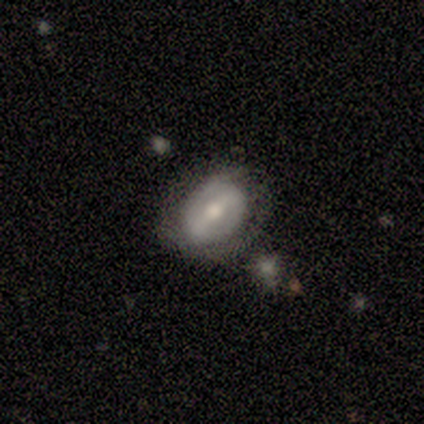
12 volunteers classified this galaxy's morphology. Smooth or featured? featured or disk (75%)
Edge-on disk? no (100%)
Bar? strong (67%)
Spiral arms? no (56%)
Bulge size? moderate (78%)
Merging? none (83%)